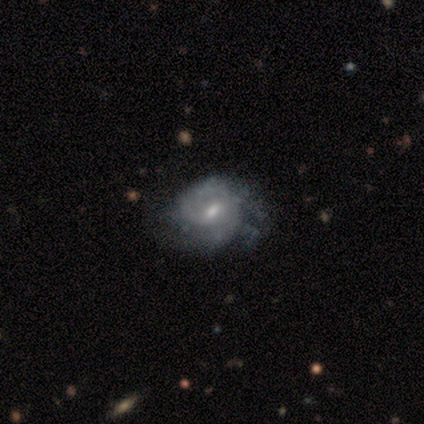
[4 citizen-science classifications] This is possibly a featured or disk galaxy (50%, tied with star or artifact). It is clearly not viewed edge-on (100%). Bar: possibly strong (50%, tied with weak). Spiral arm pattern: possibly yes (50%, tied with no). Spiral arm count: clearly 2 (100%). Spiral winding: clearly medium (100%). Central bulge: clearly small (100%). Merging: clearly major disturbance (100%).